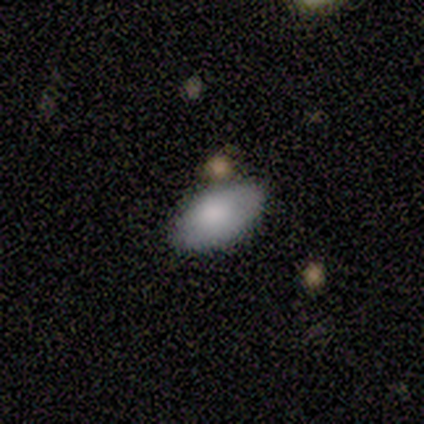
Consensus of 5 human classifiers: Overall: smooth (80%). How rounded: in between (100%). Merging: none (100%).